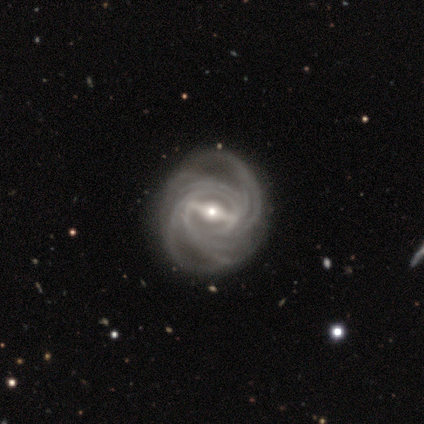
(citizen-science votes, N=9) smooth-or-featured: featured or disk: 89% | star or artifact: 11% | smooth: 0%
  disk-edge-on: no: 88% | yes: 12%
    bar: strong: 100% | weak: 0% | no: 0%
    has-spiral-arms: yes: 100% | no: 0%
      spiral-winding: tight: 86% | medium: 14% | loose: 0%
      spiral-arm-count: 4: 43% | more than 4: 29% | 3: 14% | can't tell: 14% | 1: 0% | 2: 0%
    bulge-size: small: 57% | moderate: 29% | large: 14% | dominant: 0% | none: 0%
  merging: none: 100% | minor disturbance: 0% | major disturbance: 0% | merger: 0%